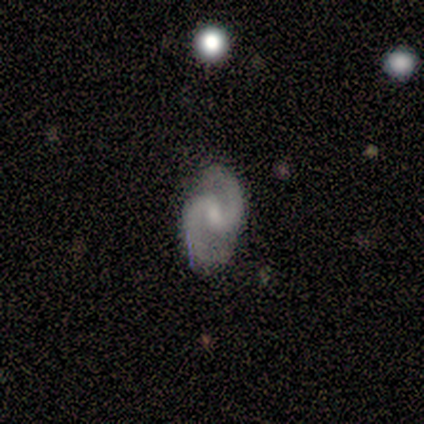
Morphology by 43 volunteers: Smooth or featured? 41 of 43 (95%) said featured or disk. Edge-on disk? 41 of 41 (100%) said no. Bar? 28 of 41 (68%) said weak. Spiral arms? 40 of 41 (98%) said yes. Spiral winding? 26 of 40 (65%) said medium. Spiral arm count? 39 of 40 (98%) said 2. Bulge size? 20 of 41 (49%) said small. Merging? 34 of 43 (79%) said none.